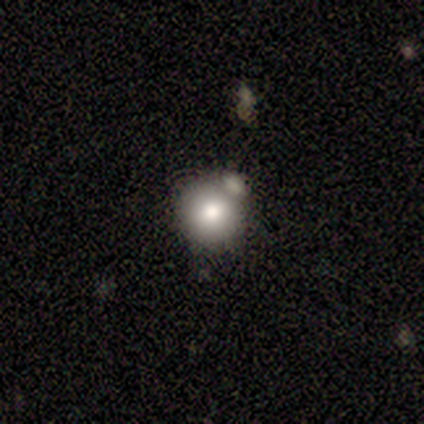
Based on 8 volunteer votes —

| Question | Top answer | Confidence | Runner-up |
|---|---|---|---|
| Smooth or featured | smooth | 62% | star or artifact (25%) |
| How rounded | round | 100% | — |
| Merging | minor disturbance | 67% | none (33%) |